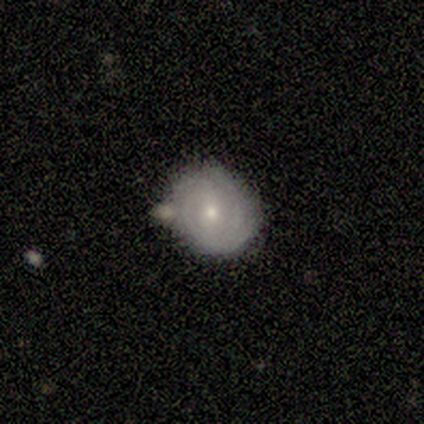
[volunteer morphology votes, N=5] This appears to be a featured or disk galaxy (60%) with no bar (67%), 2 (50%, tied with can't tell) tight (100%) spiral arms (67%) and a small central bulge (100%). Merging: none (80%).